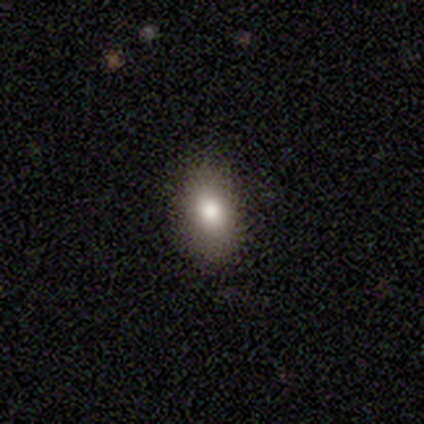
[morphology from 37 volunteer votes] A smooth galaxy with no disk features (76%) that is in between round and cigar-shaped (64%).

Vote fractions:
- Smooth or featured? smooth: 76% / star or artifact: 19% / featured or disk: 5%
- How rounded? in between: 64% / round: 32% / cigar-shaped: 4%
- Merging? none: 80% / minor disturbance: 17% / major disturbance: 3% / merger: 0%